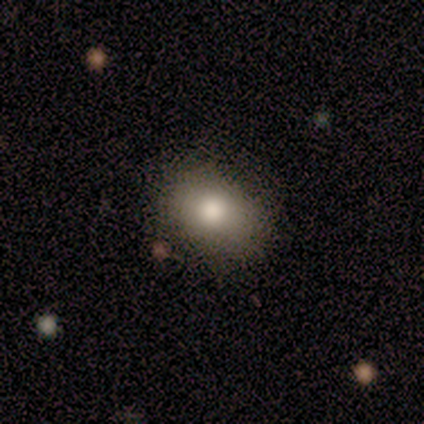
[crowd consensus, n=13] Smooth or featured? smooth (92%)
How rounded? in between (100%)
Merging? none (83%)